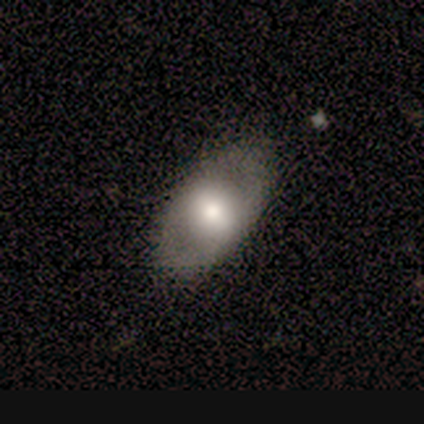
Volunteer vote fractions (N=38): This is likely a smooth galaxy (61%). How rounded: clearly in between (96%). Merging: likely none (76%).